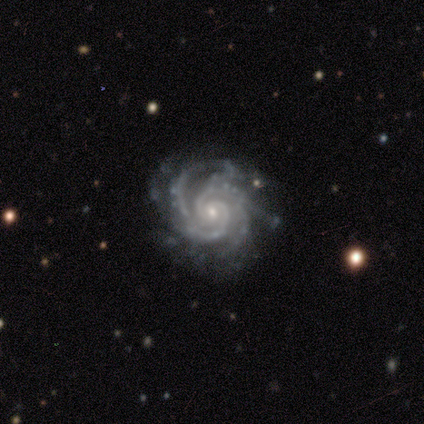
Overall: featured or disk (100%). Edge-on disk: no (100%). Bar: no (100%). Spiral arms: yes (100%). Spiral arm count: 2 (50%; 4 33%). Spiral winding: tight (67%; medium 33%). Bulge size: small (67%; moderate 33%). Merging: none (67%; minor disturbance 33%).